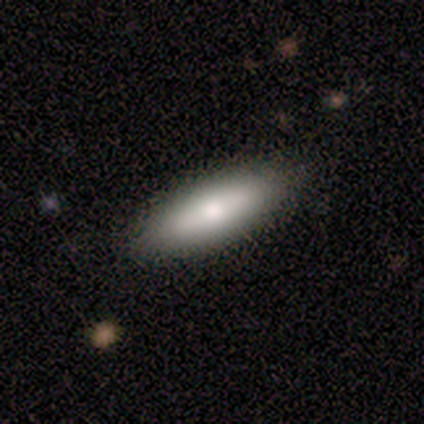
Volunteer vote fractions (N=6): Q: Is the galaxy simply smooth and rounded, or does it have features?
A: featured or disk — 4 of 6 (67%).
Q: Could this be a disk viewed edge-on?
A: yes — 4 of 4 (100%).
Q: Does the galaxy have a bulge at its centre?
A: rounded — 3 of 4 (75%).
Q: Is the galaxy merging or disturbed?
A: none — 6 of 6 (100%).